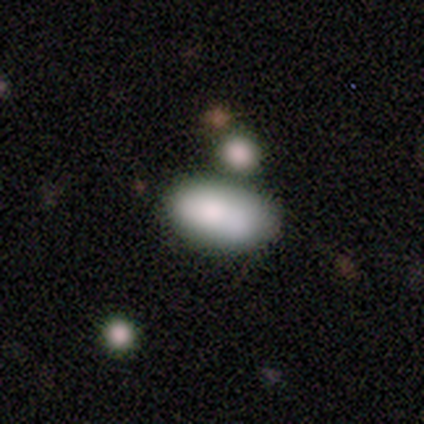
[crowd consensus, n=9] Overall: smooth (67%). How rounded: in between (100%). Merging: none (75%).